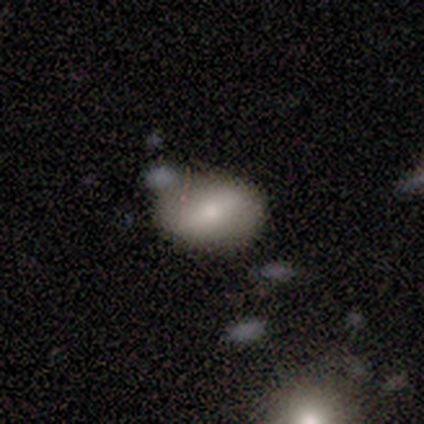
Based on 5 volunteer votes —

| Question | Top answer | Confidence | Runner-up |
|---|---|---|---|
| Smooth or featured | smooth | 60% | featured or disk (20%) |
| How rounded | in between | 100% | — |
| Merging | none | 75% | merger (25%) |